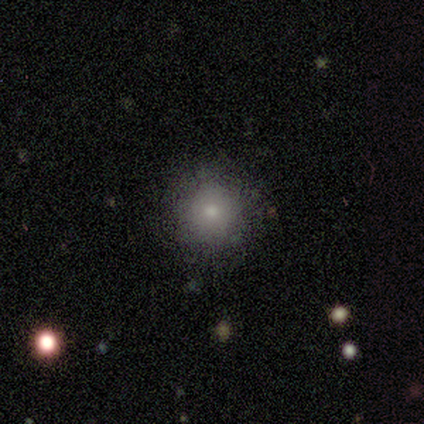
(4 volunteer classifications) This appears to be a smooth galaxy with no disk features (100%) that is round (100%). Merging: none (75%).